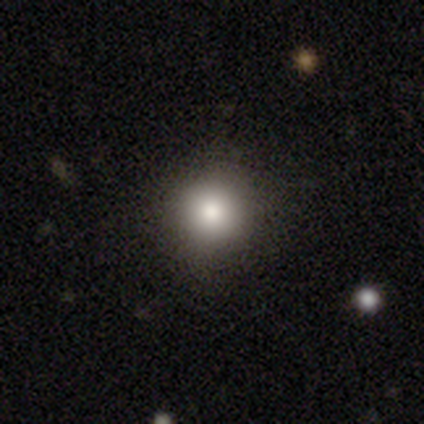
smooth-or-featured: smooth: 92% | star or artifact: 5% | featured or disk: 3%
  how-rounded: round: 100% | in between: 0% | cigar-shaped: 0%
  merging: none: 95% | minor disturbance: 5% | major disturbance: 0% | merger: 0%